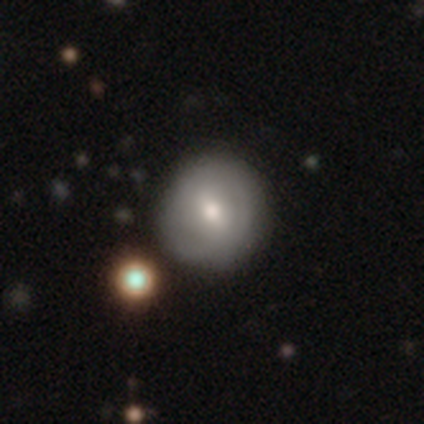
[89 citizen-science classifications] Q: Smooth or featured?
A: smooth (55%); runner-up: featured or disk (37%)
Q: How rounded?
A: round (100%)
Q: Merging?
A: none (82%); runner-up: minor disturbance (16%)